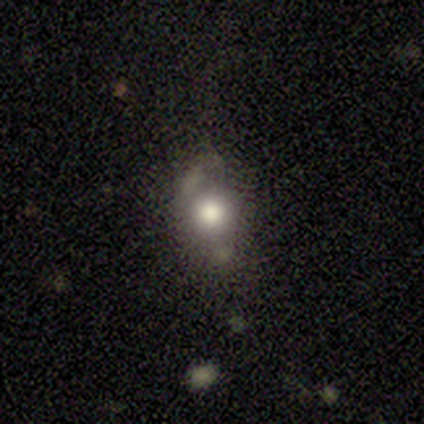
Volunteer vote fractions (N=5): Smooth or featured: smooth — 60% (star or artifact — 40%)
How rounded: in between — 100%
Merging: minor disturbance — 67% (none — 33%)